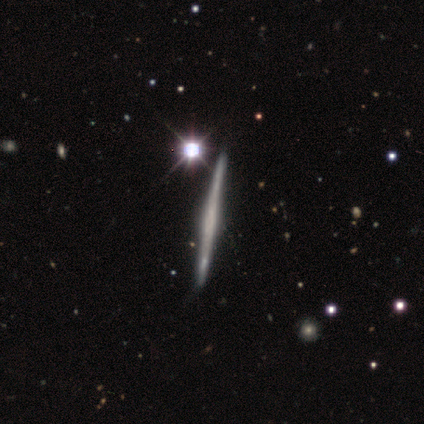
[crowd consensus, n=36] Morphology: type=featured or disk (83%); edge-on=yes (100%); edge-on bulge=none (57%); merging=none (74%).